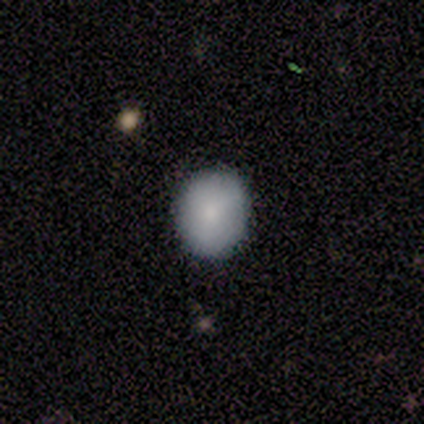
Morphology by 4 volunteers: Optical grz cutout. It shows a smooth galaxy with no disk features (100%) that is round (75%). Merging: none (75%).